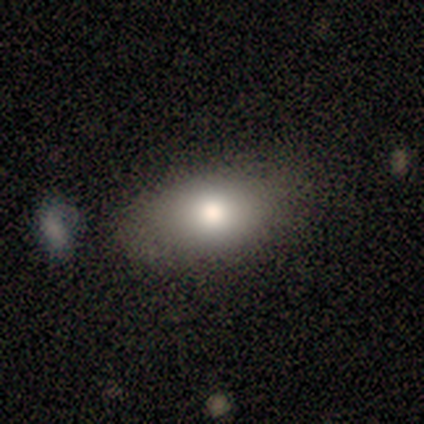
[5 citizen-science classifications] Smooth or featured? 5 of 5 (100%) said smooth. How rounded? 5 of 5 (100%) said in between. Merging? 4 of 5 (80%) said none.